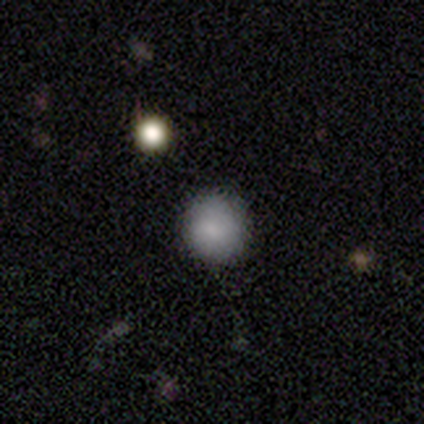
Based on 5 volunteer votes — This appears to be a smooth galaxy with no disk features (100%) that is round (100%). Merging: none (100%).